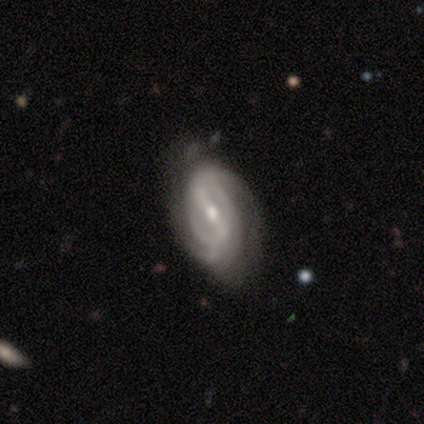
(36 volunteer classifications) featured or disk 89%, smooth 11%, star or artifact 0%. Down the decision tree: edge-on disk — no (94%); bar — strong (53%); spiral arms — yes (97%); spiral arm count — 2 (59%); spiral winding — tight (41%); bulge size — small (50%); merging — none (81%).